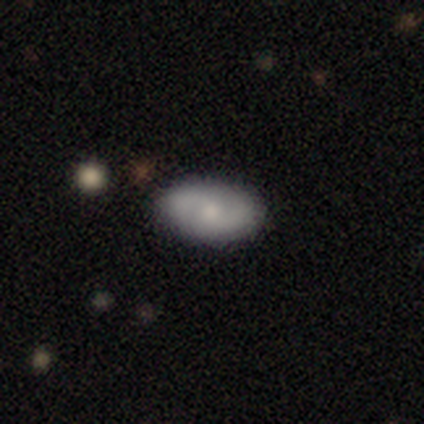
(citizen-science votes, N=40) smooth 72%, featured or disk 20%, star or artifact 8%. Down the decision tree: how rounded — in between (90%); merging — none (78%).